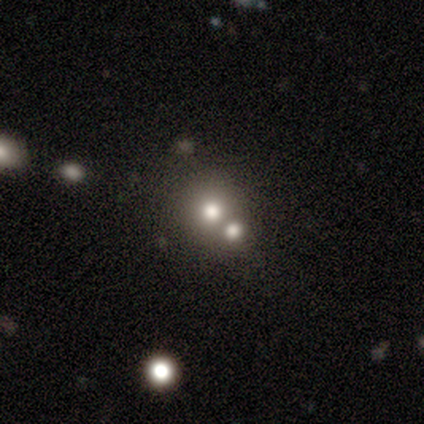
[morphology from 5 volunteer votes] A smooth galaxy with no disk features (80%) that is round (100%).

Vote fractions:
- Smooth or featured? smooth: 80% / star or artifact: 20% / featured or disk: 0%
- How rounded? round: 100% / in between: 0% / cigar-shaped: 0%
- Merging? none: 50% (tied) / merger: 50% (tied) / minor disturbance: 0% / major disturbance: 0%